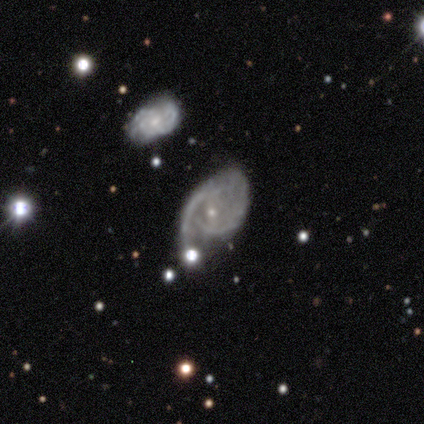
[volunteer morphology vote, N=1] A featured or disk galaxy (100%) with a weak bar (100%), 2 (100%) medium (100%) spiral arms (100%) and a small central bulge (100%).

Vote fractions:
- Smooth or featured? featured or disk: 100% / smooth: 0% / star or artifact: 0%
- Edge-on disk? no: 100% / yes: 0%
- Bar? weak: 100% / strong: 0% / no: 0%
- Spiral arms? yes: 100% / no: 0%
- Spiral winding? medium: 100% / tight: 0% / loose: 0%
- Spiral arm count? 2: 100% / 1: 0% / 3: 0% / 4: 0% / more than 4: 0% / can't tell: 0%
- Bulge size? small: 100% / dominant: 0% / large: 0% / moderate: 0% / none: 0%
- Merging? minor disturbance: 100% / none: 0% / major disturbance: 0% / merger: 0%